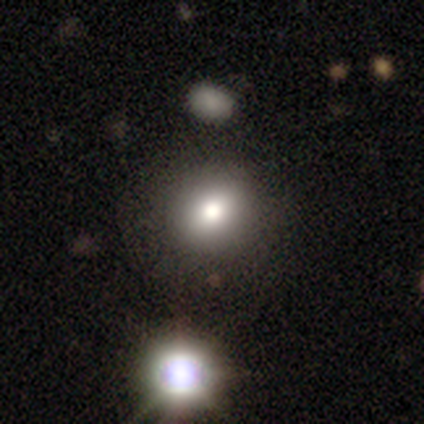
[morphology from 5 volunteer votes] Overall: smooth (100%). How rounded: round (60%; in between 40%). Merging: none (80%).